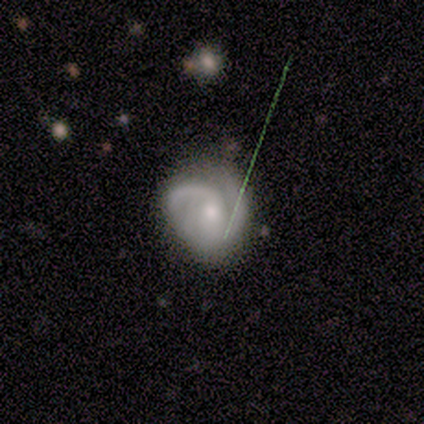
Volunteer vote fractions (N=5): Volunteers were most divided on "merging": none: 60%, minor disturbance: 40%, major disturbance: 0%, merger: 0%. More confident: smooth or featured — featured or disk (100%); edge-on disk — no (100%); spiral arms — yes (100%); spiral arm count — 2 (100%); bar — no (80%); spiral winding — medium (80%); bulge size — moderate (80%).